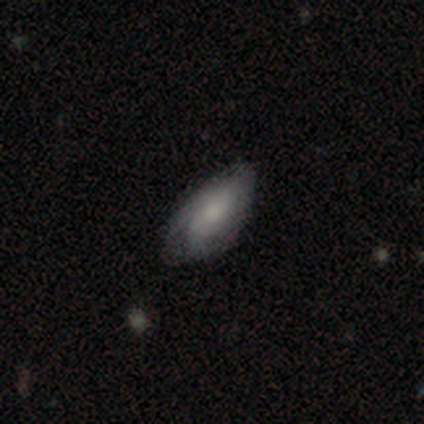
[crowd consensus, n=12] Smooth or featured?
  - featured or disk: 58% *
  - smooth: 33%
  - star or artifact: 8%
Edge-on disk?
  - no: 100% *
  - yes: 0%
Bar?
  - no: 71% *
  - weak: 29%
  - strong: 0%
Spiral arms?
  - yes: 86% *
  - no: 14%
Spiral winding?
  - medium: 50% *
  - tight: 33%
  - loose: 17%
Spiral arm count?
  - can't tell: 50% *
  - 2: 33%
  - 3: 17%
  - 1: 0%
  - 4: 0%
  - more than 4: 0%
Bulge size?
  - moderate: 57% *
  - small: 29%
  - none: 14%
  - dominant: 0%
  - large: 0%
Merging?
  - minor disturbance: 64% *
  - none: 27%
  - major disturbance: 9%
  - merger: 0%